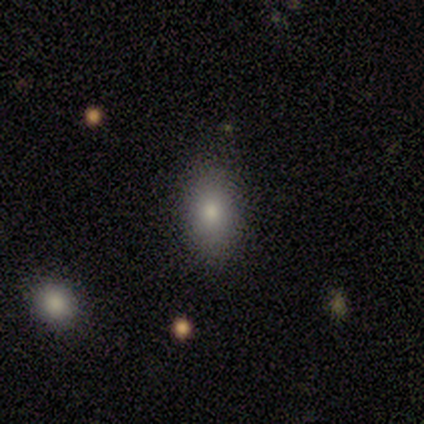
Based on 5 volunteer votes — Smooth or featured?
  - smooth: 80% *
  - star or artifact: 20%
  - featured or disk: 0%
How rounded?
  - in between: 75% *
  - round: 25%
  - cigar-shaped: 0%
Merging?
  - minor disturbance: 50% *
  - none: 25%
  - major disturbance: 25%
  - merger: 0%